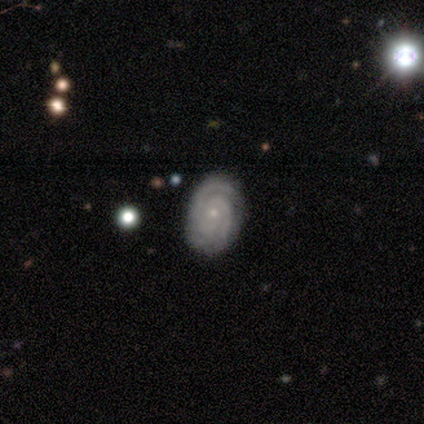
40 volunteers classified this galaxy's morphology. This appears to be a featured or disk galaxy (88%) with no bar (69%), 2 (69%) tight (83%) spiral arms (100%) and a small central bulge (91%). Merging: none (81%).